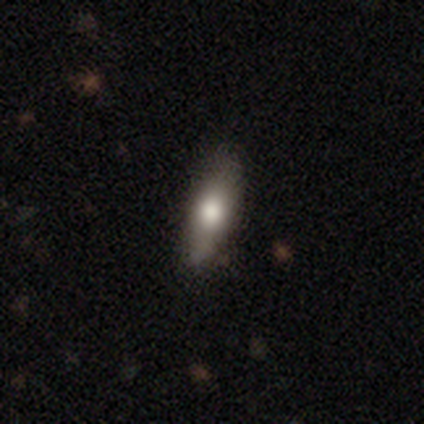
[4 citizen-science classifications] Q: Smooth or featured?
A: star or artifact (50%); runner-up: smooth (25%)